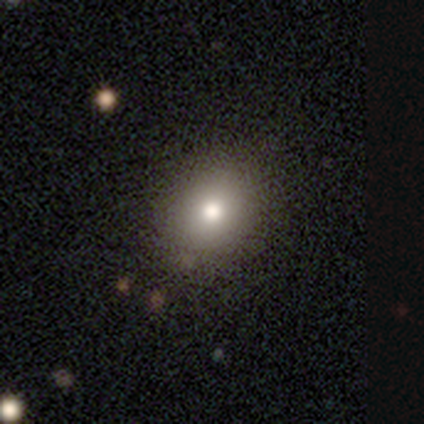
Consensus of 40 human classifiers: Smooth or featured?
  - smooth: 75% *
  - featured or disk: 20%
  - star or artifact: 5%
How rounded?
  - round: 53% *
  - in between: 47%
  - cigar-shaped: 0%
Merging?
  - none: 55% *
  - minor disturbance: 5%
  - major disturbance: 0%
  - merger: 0%